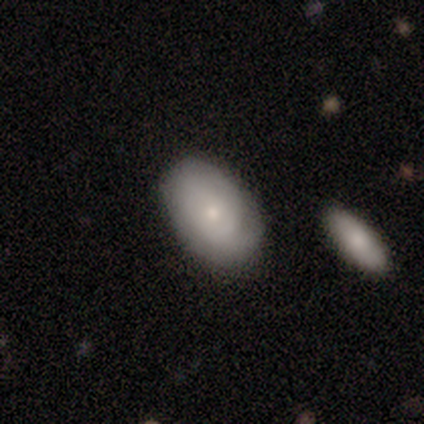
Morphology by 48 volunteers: Q: Smooth or featured?
A: smooth (48%); runner-up: featured or disk (44%)
Q: How rounded?
A: in between (87%); runner-up: round (13%)
Q: Merging?
A: none (80%); runner-up: minor disturbance (16%)